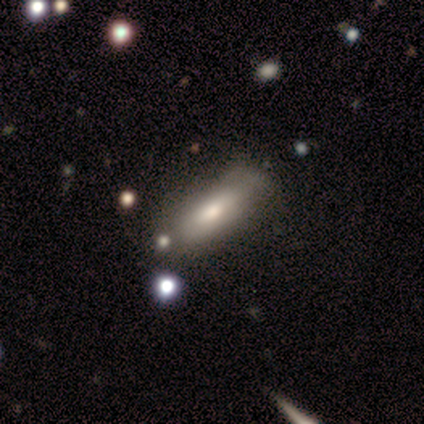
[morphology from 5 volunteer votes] smooth_or_featured: smooth (p=0.80) [alt: featured or disk p=0.20]
how_rounded: in between (p=1.00)
merging: minor disturbance (p=0.80) [alt: none p=0.20]